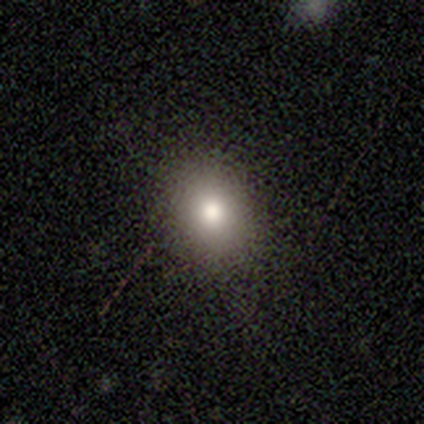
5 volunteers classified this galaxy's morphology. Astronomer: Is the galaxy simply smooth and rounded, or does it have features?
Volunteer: smooth — 80%.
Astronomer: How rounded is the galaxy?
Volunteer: round — 75%.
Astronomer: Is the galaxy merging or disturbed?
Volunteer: none — 100%.